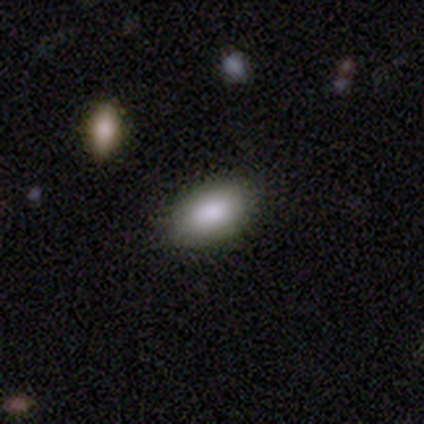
This appears to be a smooth galaxy with no disk features (100%) that is in between round and cigar-shaped (100%). Merging: none (100%).